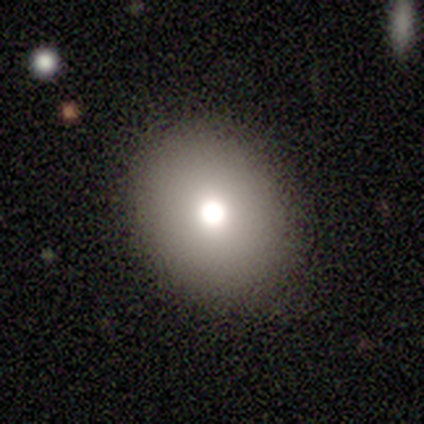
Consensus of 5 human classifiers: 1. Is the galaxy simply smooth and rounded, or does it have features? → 60% smooth, 20% featured or disk, 20% star or artifact.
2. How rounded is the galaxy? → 67% round, 33% in between, 0% cigar-shaped.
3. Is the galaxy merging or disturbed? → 75% none, 25% minor disturbance, 0% major disturbance, 0% merger.